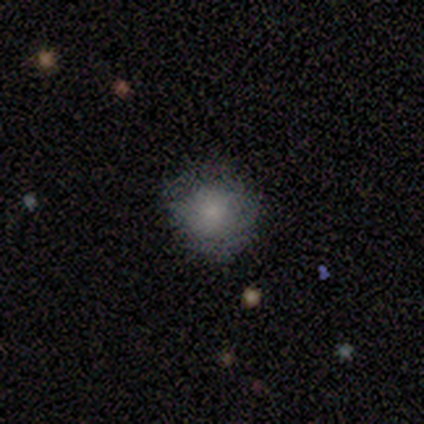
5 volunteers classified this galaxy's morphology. Smooth or featured? smooth (100%)
How rounded? round (100%)
Merging? none (100%)